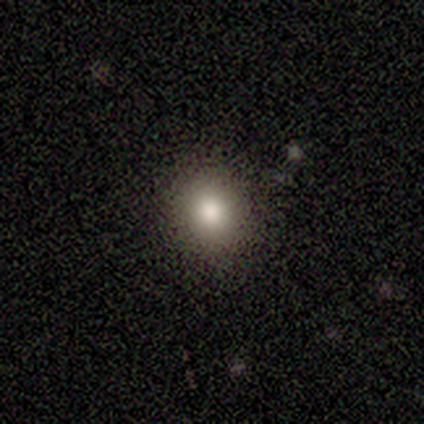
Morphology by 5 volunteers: smooth-or-featured: smooth: 40% (tied) | featured or disk: 40% (tied) | star or artifact: 20%
  how-rounded: round: 100% | in between: 0% | cigar-shaped: 0%
  merging: none: 75% | major disturbance: 25% | minor disturbance: 0% | merger: 0%